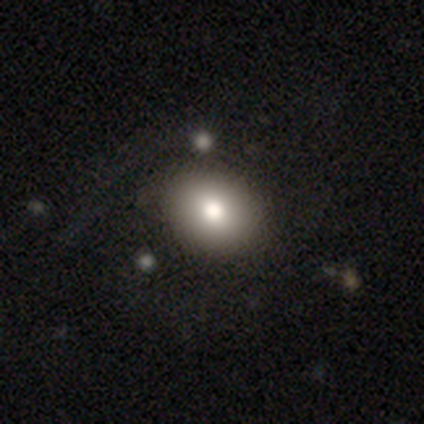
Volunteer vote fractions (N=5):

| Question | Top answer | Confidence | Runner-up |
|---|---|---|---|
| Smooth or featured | smooth | 100% | — |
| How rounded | in between | 60% | round (40%) |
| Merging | none | 100% | — |